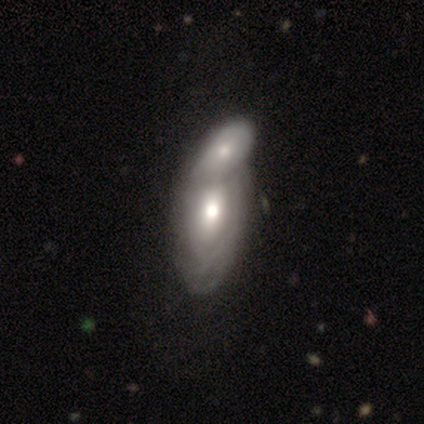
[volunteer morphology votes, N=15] This appears to be a featured or disk galaxy (73%) with no bar (60%), tight (57%) spiral arms (70%) and a moderate central bulge (70%). Merging: merger (73%).